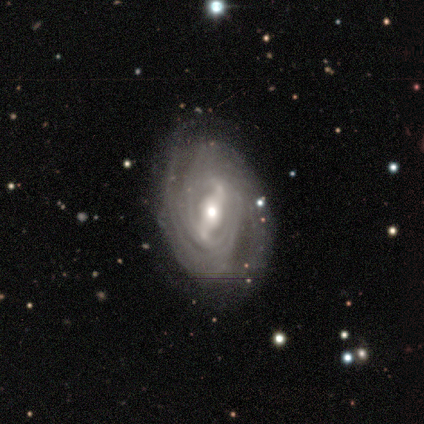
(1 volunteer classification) Morphology: type=featured or disk (100%); edge-on=no (100%); bar=strong (100%); spiral arms=yes (100%); winding=tight (100%); arm count=2 (100%); bulge=moderate (100%); merging=none (100%).